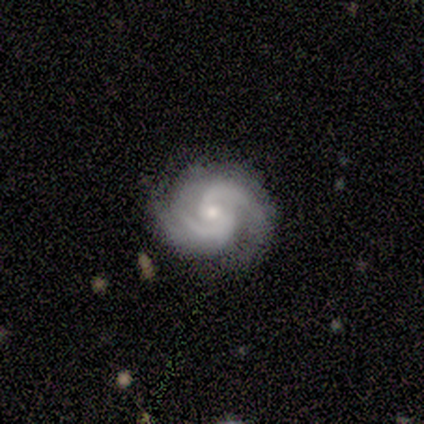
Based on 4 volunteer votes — This is clearly a featured or disk galaxy (100%). It is clearly not viewed edge-on (100%). Bar: possibly no (50%). Spiral arm pattern: clearly yes (100%). Spiral arm count: likely 2 (75%). Spiral winding: possibly tight (50%, tied with medium). Central bulge: possibly moderate (50%, tied with small). Merging: likely none (75%).